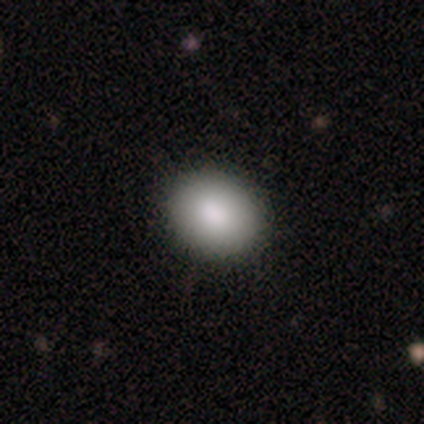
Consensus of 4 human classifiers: Smooth or featured: smooth — 75% (featured or disk — 25%)
How rounded: round — 67% (in between — 33%)
Merging: none — 100%